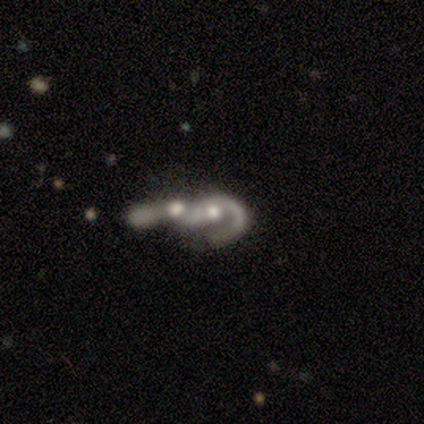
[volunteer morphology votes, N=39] Smooth or featured: featured or disk — 87% (smooth — 13%)
Edge-on disk: no — 94% (yes — 6%)
Bar: no — 91% (weak — 6%)
Spiral arms: yes — 50% (tied with no — 50%)
Spiral winding: loose — 56% (medium — 38%)
Spiral arm count: 1 — 56% (can't tell — 25%)
Bulge size: moderate — 47% (small — 28%)
Merging: merger — 79% (none — 13%)